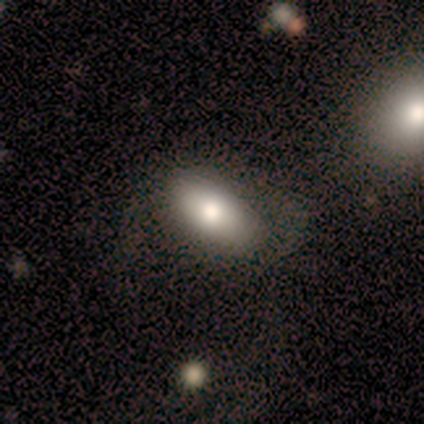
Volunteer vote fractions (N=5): A smooth galaxy with no disk features (80%) that is in between round and cigar-shaped (100%). Merging: none (60%).